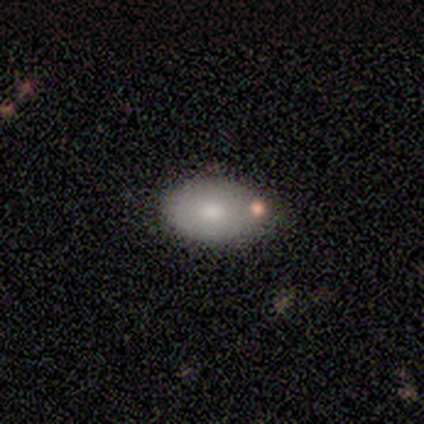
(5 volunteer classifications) A smooth galaxy with no disk features (80%) that is in between round and cigar-shaped (100%).

Vote fractions:
- Smooth or featured? smooth: 80% / star or artifact: 20% / featured or disk: 0%
- How rounded? in between: 100% / round: 0% / cigar-shaped: 0%
- Merging? none: 100% / minor disturbance: 0% / major disturbance: 0% / merger: 0%